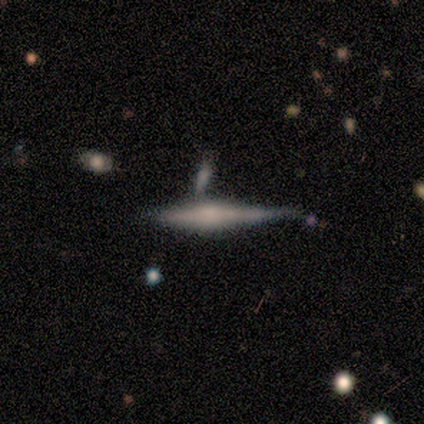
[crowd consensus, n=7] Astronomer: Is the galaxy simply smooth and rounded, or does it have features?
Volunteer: featured or disk — 57% (runner-up: smooth, 43%).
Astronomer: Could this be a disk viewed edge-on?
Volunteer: yes — 100%.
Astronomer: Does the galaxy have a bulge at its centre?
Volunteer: boxy — 50%, tied with rounded at 50%.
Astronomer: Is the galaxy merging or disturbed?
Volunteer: none — 71%.